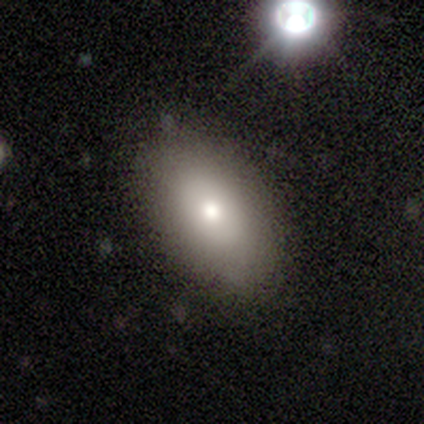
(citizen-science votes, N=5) Q: Smooth or featured?
A: smooth (60%); runner-up: featured or disk (40%)
Q: How rounded?
A: in between (100%)
Q: Merging?
A: none (100%)